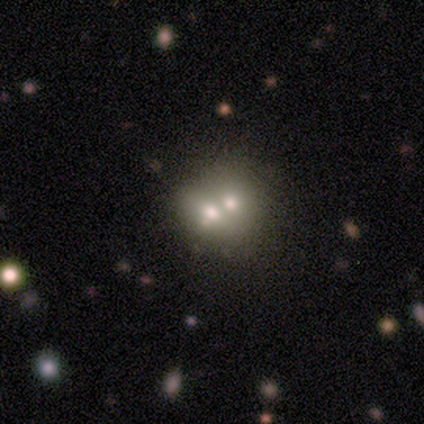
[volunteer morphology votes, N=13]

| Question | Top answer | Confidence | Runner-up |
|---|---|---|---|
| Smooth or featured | smooth | 62% | featured or disk (38%) |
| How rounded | round | 62% | in between (38%) |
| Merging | merger | 85% | none (8%) |